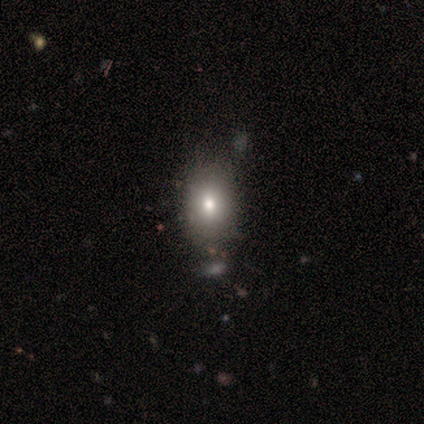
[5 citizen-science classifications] Overall: smooth (40%, tied with star or artifact). How rounded: round (50%, tied with in between). Merging: minor disturbance (67%; none 33%).